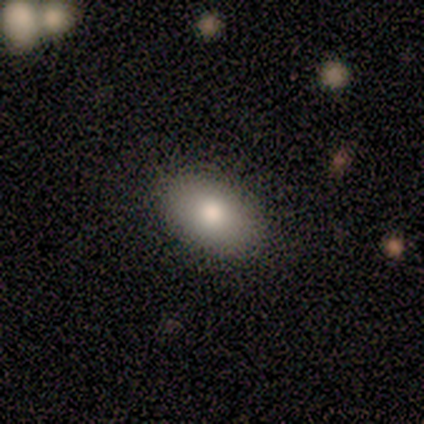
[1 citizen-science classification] Q: Smooth or featured?
A: smooth (100%)
Q: How rounded?
A: in between (100%)
Q: Merging?
A: none (100%)